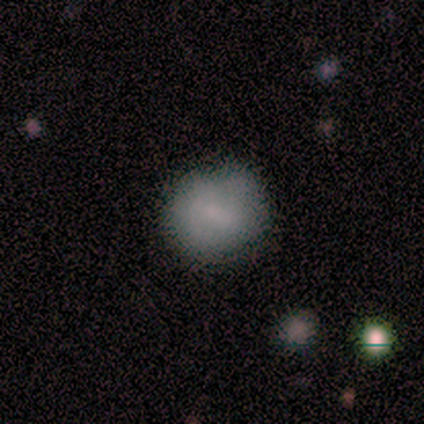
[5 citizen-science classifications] Smooth or featured? smooth (60%)
How rounded? round (67%)
Merging? none (100%)